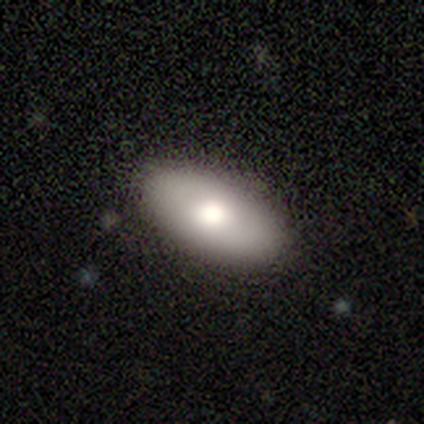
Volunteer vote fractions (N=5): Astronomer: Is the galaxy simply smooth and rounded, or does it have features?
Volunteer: smooth — 80%.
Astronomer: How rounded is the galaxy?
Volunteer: in between — 100%.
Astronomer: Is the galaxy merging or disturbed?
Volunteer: none — 100%.